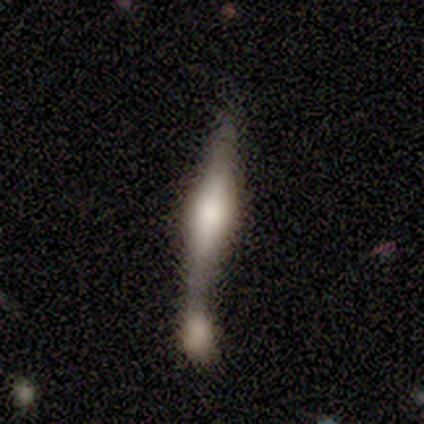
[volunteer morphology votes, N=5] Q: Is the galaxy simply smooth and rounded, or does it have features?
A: featured or disk — 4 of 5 (80%).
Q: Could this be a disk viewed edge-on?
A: yes — 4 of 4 (100%).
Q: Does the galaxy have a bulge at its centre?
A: boxy — 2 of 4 (50%, tied with rounded).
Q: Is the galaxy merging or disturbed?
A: merger — 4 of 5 (80%).